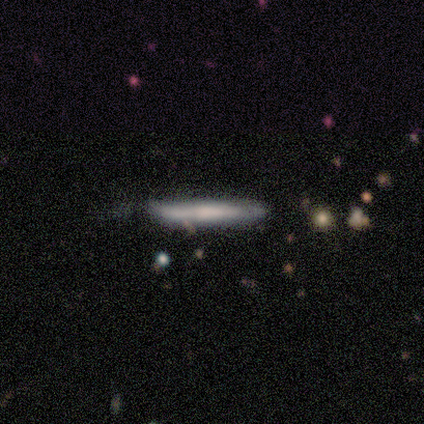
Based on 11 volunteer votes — A smooth galaxy with no disk features (55%) that is cigar-shaped (100%). Merging: none (73%).